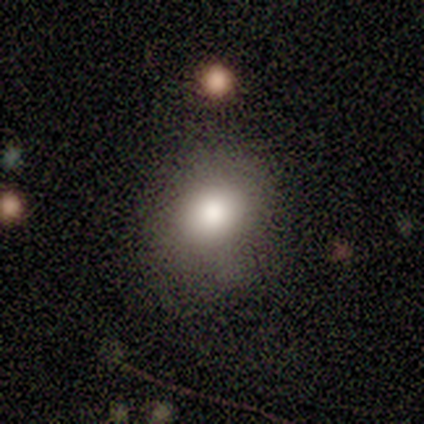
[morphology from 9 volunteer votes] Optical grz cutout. It shows a smooth galaxy with no disk features (100%) that is in between round and cigar-shaped (67%). Merging: none (67%).